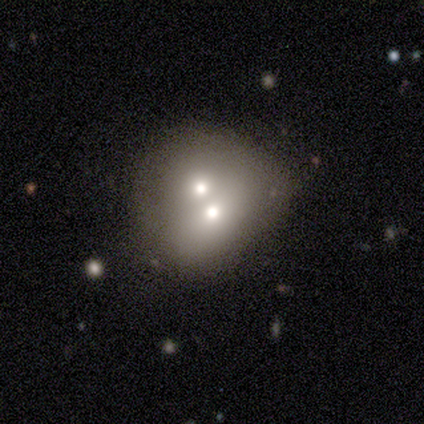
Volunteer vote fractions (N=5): Morphology: type=smooth (80%); roundness=in between (75%); merging=merger (100%).